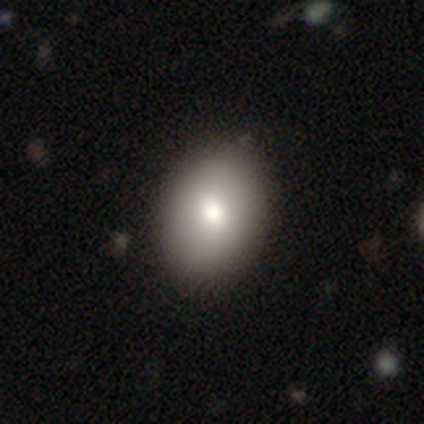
This is likely a smooth galaxy (74%). How rounded: likely in between (75%). Merging: likely none (68%).